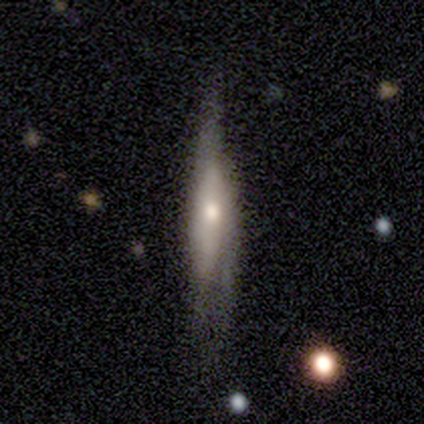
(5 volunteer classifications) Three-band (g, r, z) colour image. It shows a smooth galaxy with no disk features (80%) that is cigar-shaped (100%). Merging: minor disturbance (40%, tied with major disturbance).